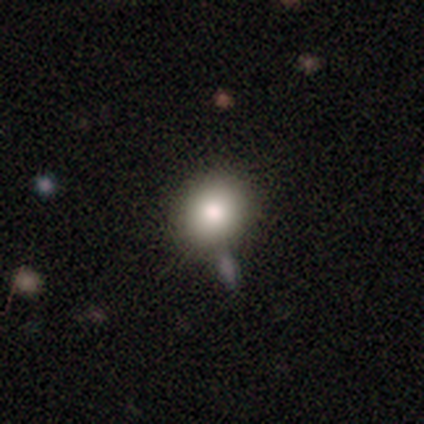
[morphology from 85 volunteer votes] Overall: smooth (86%). How rounded: round (67%; in between 32%). Merging: none (70%).